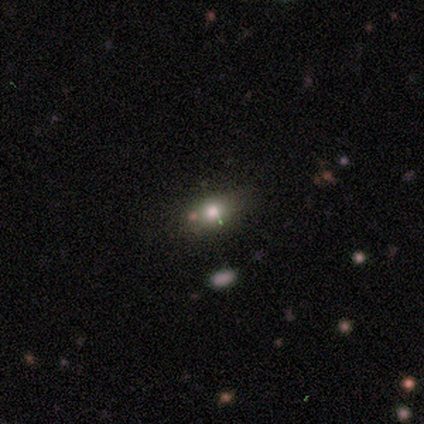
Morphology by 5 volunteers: smooth-or-featured: smooth: 60% | star or artifact: 40% | featured or disk: 0%
  how-rounded: in between: 67% | round: 33% | cigar-shaped: 0%
  merging: none: 67% | minor disturbance: 33% | major disturbance: 0% | merger: 0%